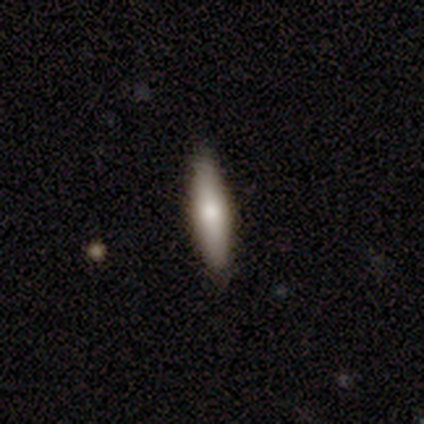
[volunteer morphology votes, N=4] Smooth or featured? smooth (75%)
How rounded? in between (67%)
Merging? none (50%, tied with minor disturbance)